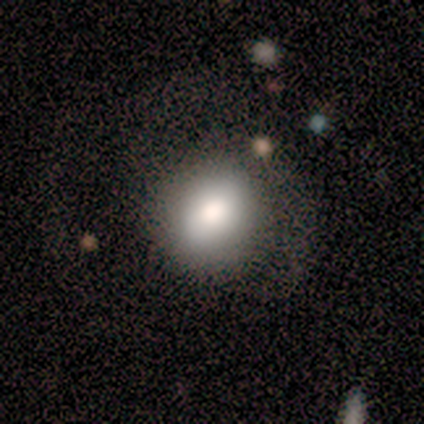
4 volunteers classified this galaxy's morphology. This appears to be a smooth galaxy with no disk features (50%, tied with star or artifact) that is round (50%, tied with in between). Merging: minor disturbance (50%, tied with merger).